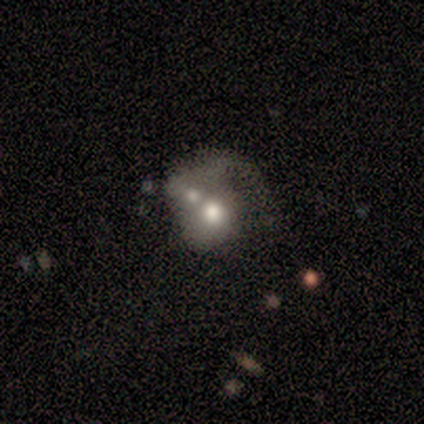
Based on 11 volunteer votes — Smooth or featured?
  - smooth: 73% *
  - featured or disk: 18%
  - star or artifact: 9%
How rounded?
  - in between: 62% *
  - round: 38%
  - cigar-shaped: 0%
Merging?
  - merger: 80% *
  - minor disturbance: 10%
  - major disturbance: 10%
  - none: 0%